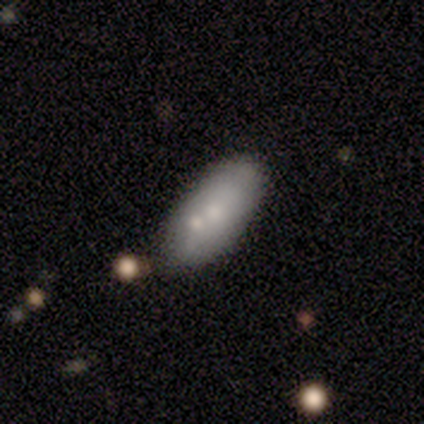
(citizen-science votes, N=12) Smooth or featured? smooth (67%)
How rounded? in between (88%)
Merging? minor disturbance (45%)